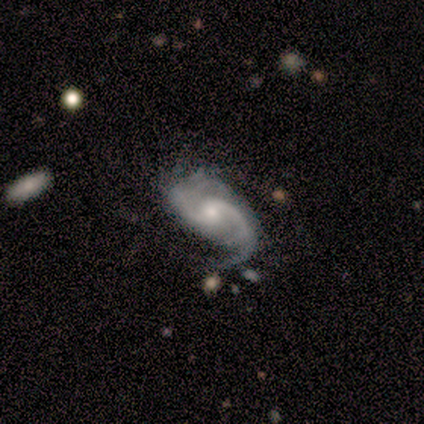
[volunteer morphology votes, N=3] This appears to be a featured or disk galaxy (100%) with a strong bar (33%, tied with weak and no), 2 (67%) tight (33%, tied with medium and loose) spiral arms (100%) and a small central bulge (100%). Merging: none (33%, tied with minor disturbance and major disturbance).